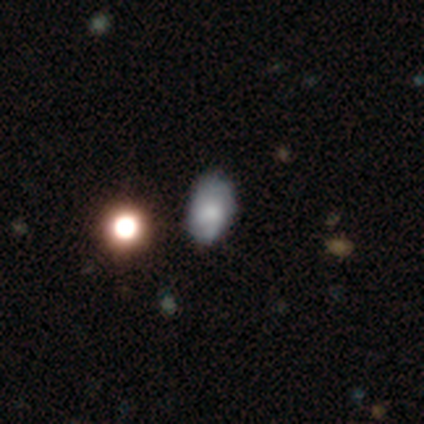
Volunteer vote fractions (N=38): Morphology: type=smooth (63%); roundness=in between (96%); merging=none (49%).